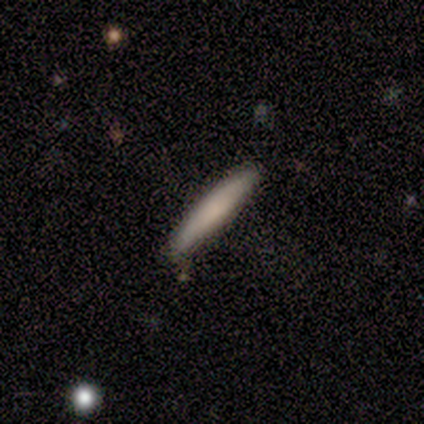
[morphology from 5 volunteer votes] Smooth or featured: smooth — 80% (star or artifact — 20%)
How rounded: cigar-shaped — 75% (in between — 25%)
Merging: none — 100%